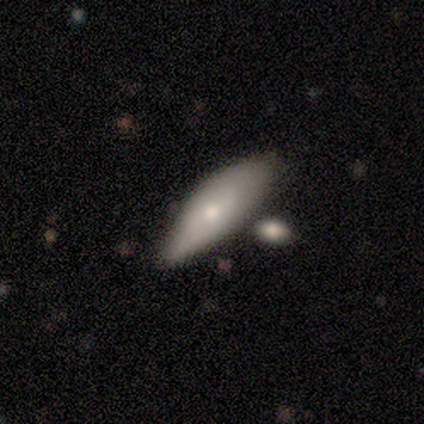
Smooth or featured? smooth (75%)
How rounded? in between (100%)
Merging? none (75%)